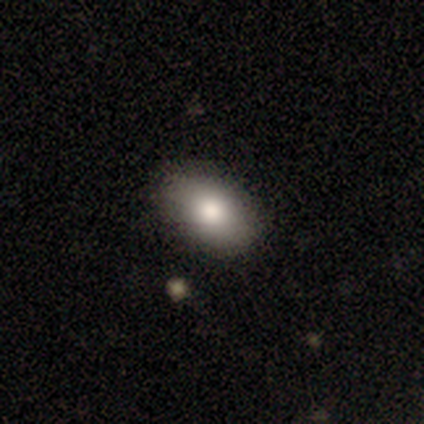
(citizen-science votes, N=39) Q: Smooth or featured?
A: smooth (97%); runner-up: featured or disk (3%)
Q: How rounded?
A: in between (97%); runner-up: round (3%)
Q: Merging?
A: none (72%); runner-up: minor disturbance (23%)